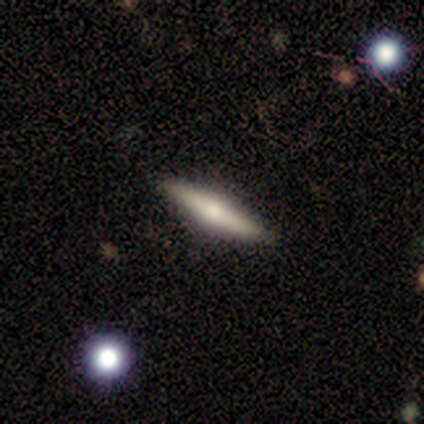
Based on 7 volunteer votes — Q: Smooth or featured?
A: smooth (86%); runner-up: featured or disk (14%)
Q: How rounded?
A: cigar-shaped (83%); runner-up: in between (17%)
Q: Merging?
A: none (86%); runner-up: minor disturbance (14%)